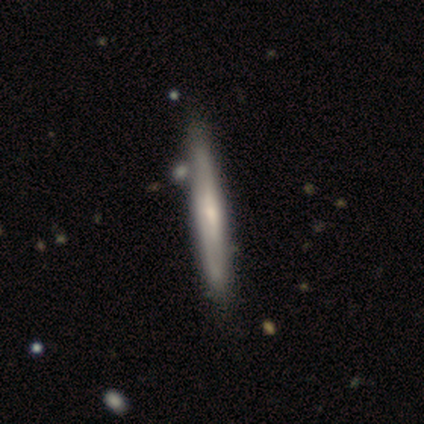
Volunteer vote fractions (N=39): Smooth or featured?
  - featured or disk: 67% *
  - smooth: 33%
  - star or artifact: 0%
Edge-on disk?
  - yes: 92% *
  - no: 8%
Edge-on bulge?
  - rounded: 54% *
  - none: 38%
  - boxy: 8%
Merging?
  - none: 46% *
  - merger: 10%
  - minor disturbance: 8%
  - major disturbance: 5%